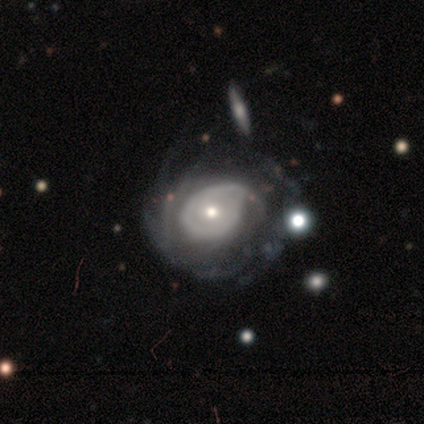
Smooth or featured?
  - featured or disk: 91% *
  - smooth: 4%
  - star or artifact: 4%
Edge-on disk?
  - no: 98% *
  - yes: 2%
Bar?
  - no: 93% *
  - weak: 5%
  - strong: 2%
Spiral arms?
  - yes: 81% *
  - no: 19%
Spiral winding?
  - tight: 56% *
  - medium: 29%
  - loose: 15%
Spiral arm count?
  - can't tell: 35% *
  - more than 4: 21%
  - 1: 15%
  - 2: 12%
  - 3: 12%
  - 4: 6%
Bulge size?
  - small: 50% *
  - moderate: 40%
  - large: 10%
  - dominant: 0%
  - none: 0%
Merging?
  - minor disturbance: 33% * (tied)
  - major disturbance: 33% * (tied)
  - none: 22%
  - merger: 11%